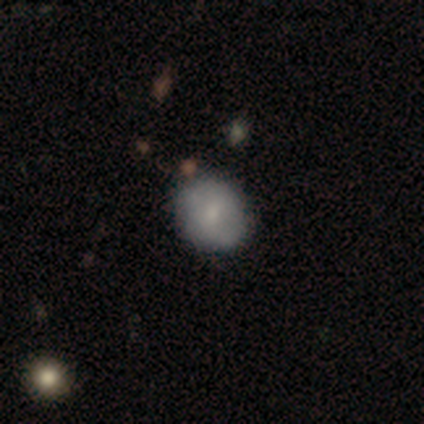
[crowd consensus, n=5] This is likely a smooth galaxy (60%). How rounded: clearly round (100%). Merging: likely none (75%).